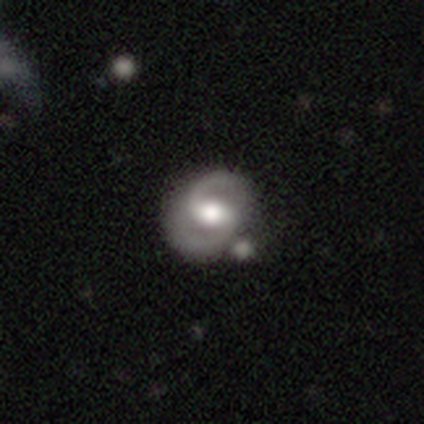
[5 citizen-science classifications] Smooth or featured? 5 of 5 (100%) said featured or disk. Edge-on disk? 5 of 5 (100%) said no. Bar? 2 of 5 (40%, tied with no) said weak. Spiral arms? 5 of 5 (100%) said yes. Spiral winding? 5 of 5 (100%) said tight. Spiral arm count? 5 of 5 (100%) said 2. Bulge size? 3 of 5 (60%) said large. Merging? 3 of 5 (60%) said none.